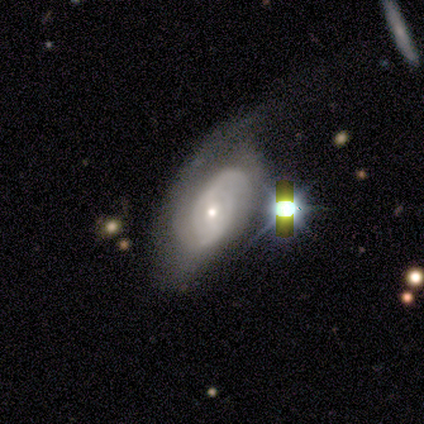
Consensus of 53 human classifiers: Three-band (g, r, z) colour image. It shows a featured or disk galaxy (79%) with no bar (55%), 2 (51%) tight (46%, tied with medium) spiral arms (92%) and a small central bulge (53%). Merging: major disturbance (38%).